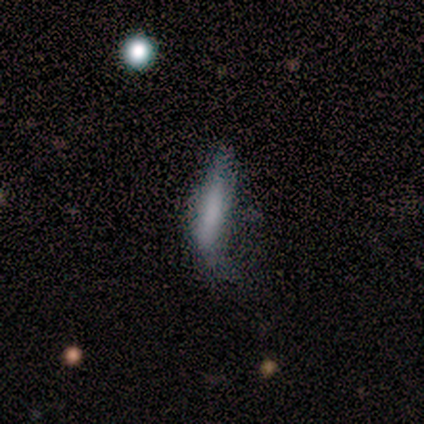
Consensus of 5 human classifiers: Smooth or featured? smooth (100%)
How rounded? cigar-shaped (60%)
Merging? none (60%)